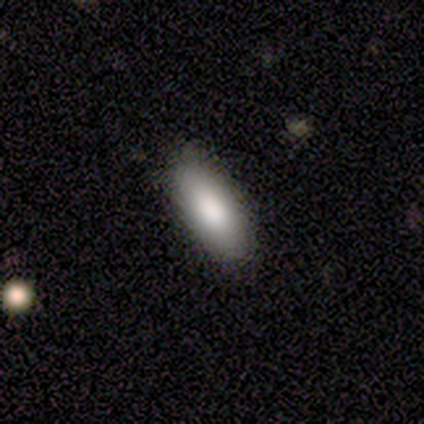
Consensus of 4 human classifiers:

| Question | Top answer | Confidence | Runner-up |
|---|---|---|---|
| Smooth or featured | smooth | 100% | — |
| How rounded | in between | 100% | — |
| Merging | none | 100% | — |